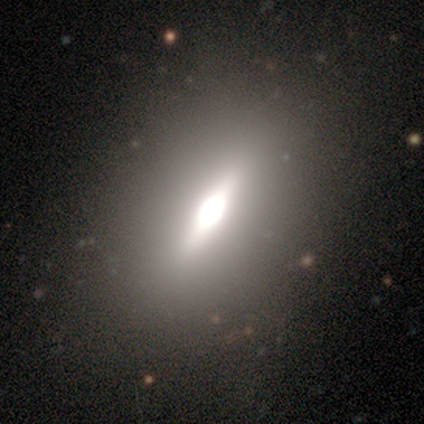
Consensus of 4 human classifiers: smooth-or-featured: smooth: 50% (tied) | featured or disk: 50% (tied) | star or artifact: 0%
  how-rounded: in between: 100% | round: 0% | cigar-shaped: 0%
  merging: none: 50% (tied) | major disturbance: 50% (tied) | minor disturbance: 0% | merger: 0%